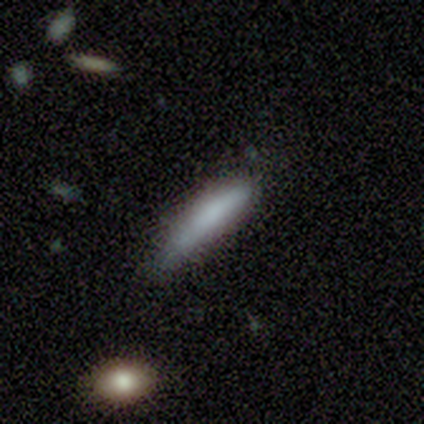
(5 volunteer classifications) Morphology: type=smooth (80%); roundness=cigar-shaped (100%); merging=minor disturbance (80%).